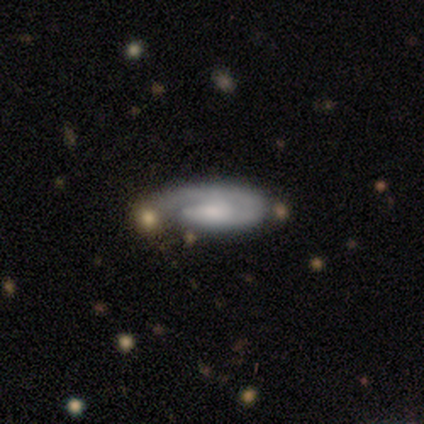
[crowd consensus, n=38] This appears to be a featured or disk galaxy (71%) with no bar (61%), 1 (91%) tight (68%) spiral arms (96%) and a small central bulge (39%). Merging: none (58%).